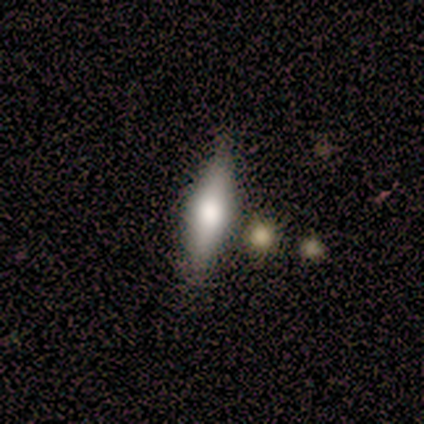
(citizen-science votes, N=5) Overall: smooth (60%; featured or disk 40%). How rounded: in between (67%; cigar-shaped 33%). Merging: none (80%).